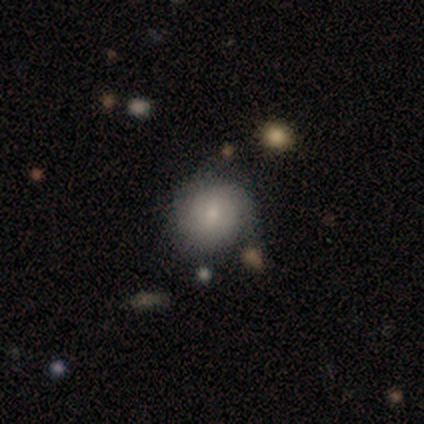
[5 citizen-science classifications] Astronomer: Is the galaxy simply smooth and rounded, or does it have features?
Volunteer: smooth — 40%, tied with featured or disk at 40%.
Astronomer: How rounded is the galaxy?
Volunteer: round — 50%, tied with in between at 50%.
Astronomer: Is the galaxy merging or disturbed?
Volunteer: minor disturbance — 75%.